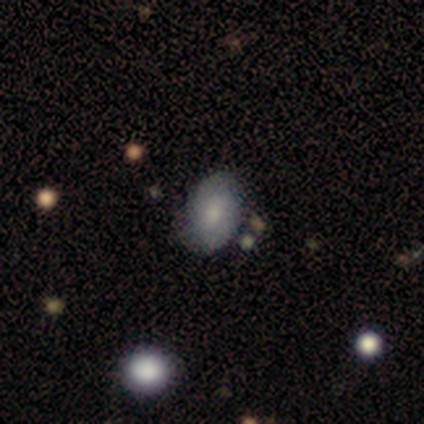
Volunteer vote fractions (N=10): Volunteers were most divided on "merging": none: 56%, minor disturbance: 33%, major disturbance: 11%, merger: 0%. More confident: how rounded — in between (67%); smooth or featured — smooth (60%).